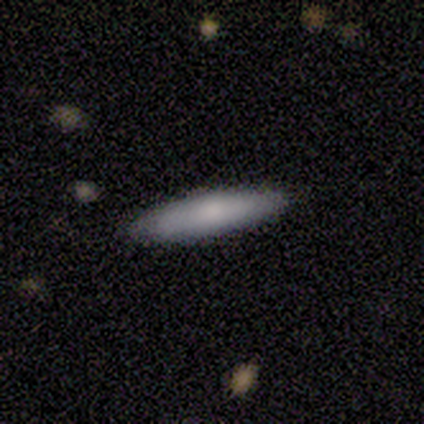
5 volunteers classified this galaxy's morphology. smooth_or_featured: smooth (p=1.00)
how_rounded: cigar-shaped (p=0.80) [alt: in between p=0.20]
merging: none (p=1.00)